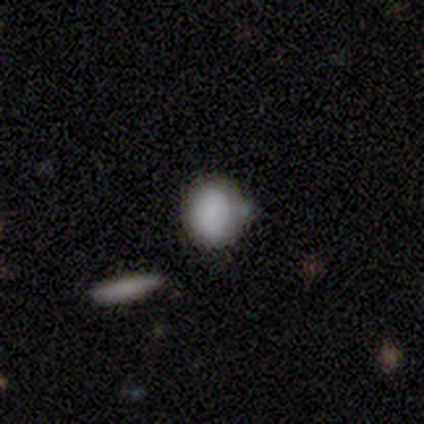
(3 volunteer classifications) smooth 100%, featured or disk 0%, star or artifact 0%. Down the decision tree: how rounded — in between (67%); merging — none (67%).